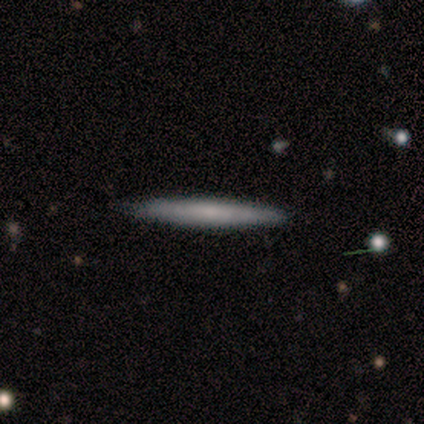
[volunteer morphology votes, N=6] Volunteers were most divided on "smooth or featured": smooth: 67%, featured or disk: 33%, star or artifact: 0%. More confident: how rounded — cigar-shaped (100%); merging — none (100%).